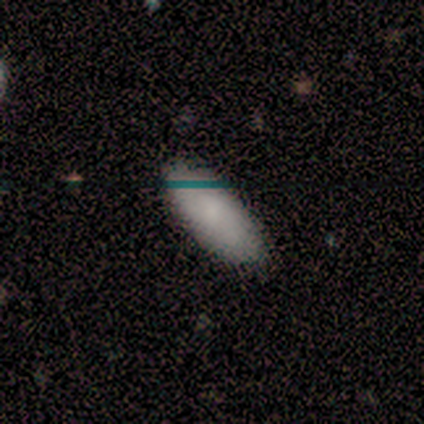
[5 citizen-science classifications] Smooth or featured: smooth — 100%
How rounded: in between — 100%
Merging: none — 80% (minor disturbance — 20%)